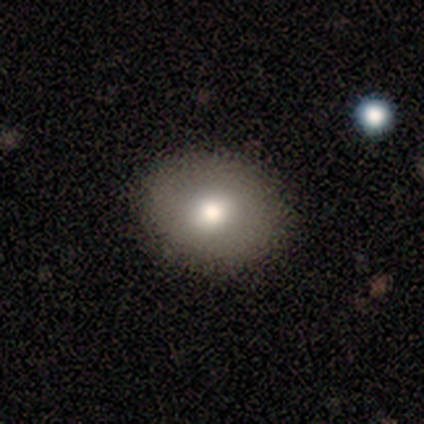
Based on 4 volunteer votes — smooth_or_featured: smooth (p=1.00)
how_rounded: round (p=0.50) [tied with: in between p=0.50]
merging: none (p=1.00)